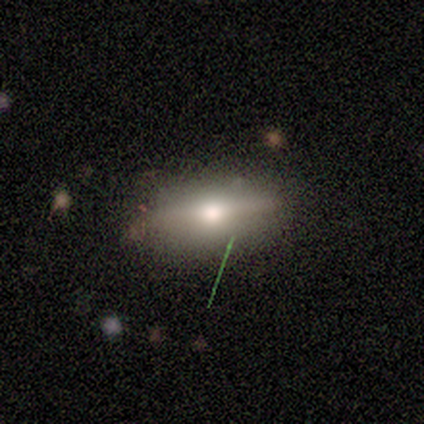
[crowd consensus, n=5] This appears to be a featured or disk galaxy (60%) with no bar (100%), no spiral arms (100%) and a moderate central bulge (100%). Merging: none (75%).